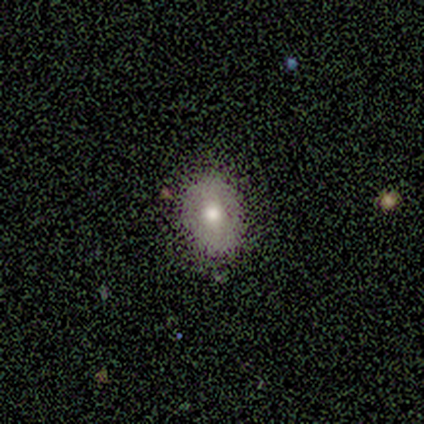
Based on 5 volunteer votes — smooth_or_featured: smooth (p=0.60) [alt: star or artifact p=0.40]
how_rounded: in between (p=0.67) [alt: round p=0.33]
merging: none (p=0.67) [alt: minor disturbance p=0.33]